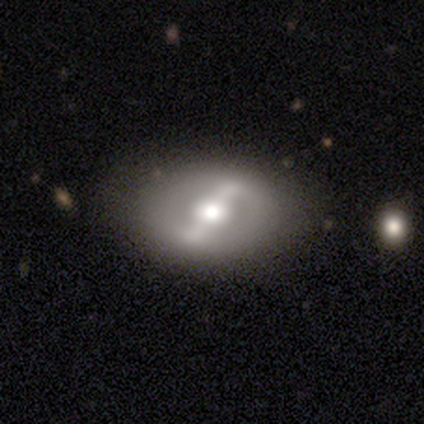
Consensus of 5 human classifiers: smooth_or_featured: featured or disk (p=1.00)
disk_edge_on: no (p=1.00)
bar: strong (p=0.60) [alt: weak p=0.20]
has_spiral_arms: no (p=0.80) [alt: yes p=0.20]
bulge_size: moderate (p=0.80) [alt: large p=0.20]
merging: minor disturbance (p=0.60) [alt: none p=0.40]